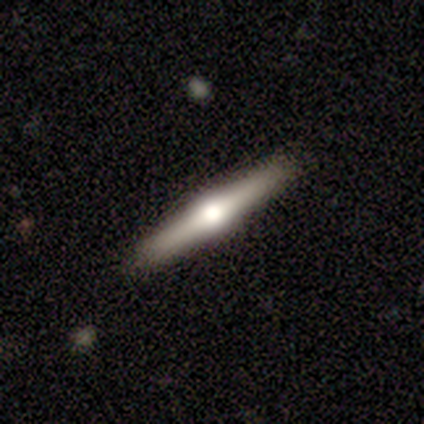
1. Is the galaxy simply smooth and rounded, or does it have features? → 72% featured or disk, 25% smooth, 2% star or artifact.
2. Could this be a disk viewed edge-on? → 97% yes, 3% no.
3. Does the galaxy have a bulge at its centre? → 100% rounded, 0% boxy, 0% none.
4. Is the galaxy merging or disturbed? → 87% none, 13% minor disturbance, 0% major disturbance, 0% merger.